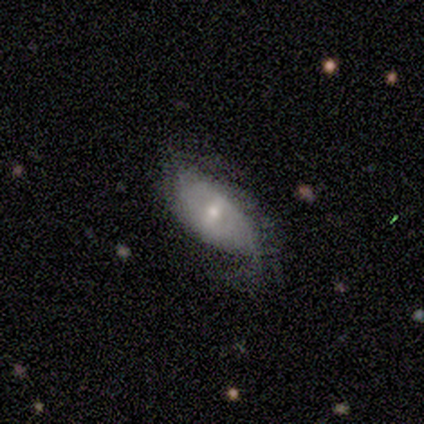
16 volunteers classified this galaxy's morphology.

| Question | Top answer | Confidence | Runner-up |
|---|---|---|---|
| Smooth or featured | featured or disk | 81% | star or artifact (19%) |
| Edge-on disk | no | 92% | yes (8%) |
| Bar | weak | 50% | strong (33%) |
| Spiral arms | yes | 58% | no (42%) |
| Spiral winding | loose | 43% | tight (29%) |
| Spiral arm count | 2 | 86% | 3 (14%) |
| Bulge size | moderate | 58% | small (42%) |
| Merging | none | 46% | minor disturbance (38%) |